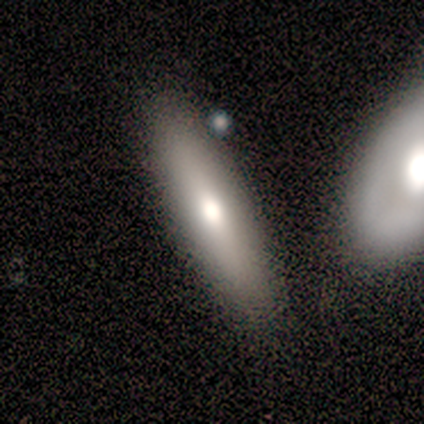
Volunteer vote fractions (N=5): Volunteers were most divided on "edge-on bulge" (2-way tie): none: 50%, rounded: 50%, boxy: 0%. More confident: merging — none (80%); edge-on disk — yes (67%); smooth or featured — featured or disk (60%).